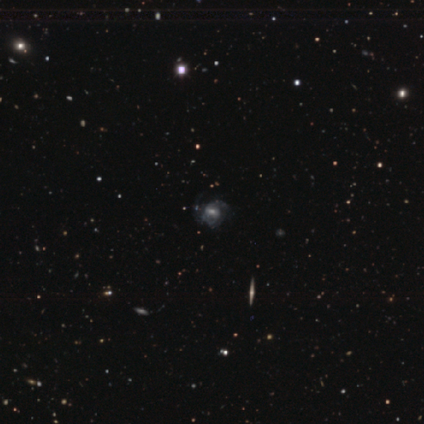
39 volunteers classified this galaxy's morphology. Overall: featured or disk (77%). Edge-on disk: no (93%). Bar: weak (43%; no 39%). Spiral arms: yes (75%). Spiral arm count: 2 (43%; can't tell 33%). Spiral winding: medium (43%; tight 29%). Bulge size: moderate (50%; small 25%). Merging: none (37%; minor disturbance 17%).